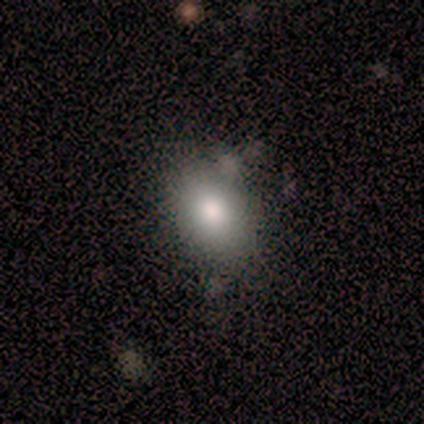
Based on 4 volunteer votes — This is likely a smooth galaxy (75%). How rounded: likely in between (67%). Merging: likely none (75%).